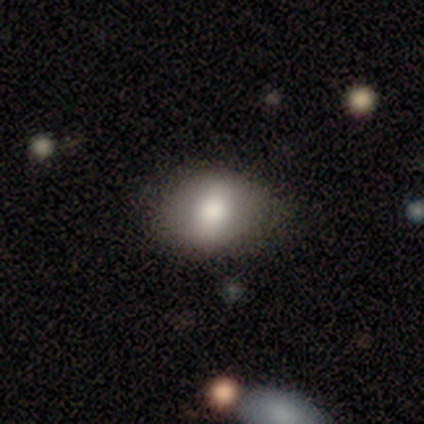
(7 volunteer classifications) A smooth galaxy with no disk features (57%) that is round (50%, tied with in between).

Vote fractions:
- Smooth or featured? smooth: 57% / featured or disk: 43% / star or artifact: 0%
- How rounded? round: 50% (tied) / in between: 50% (tied) / cigar-shaped: 0%
- Merging? none: 71% / minor disturbance: 14% / major disturbance: 14% / merger: 0%